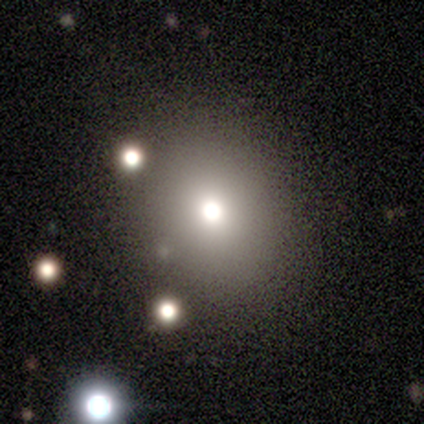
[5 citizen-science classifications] A smooth galaxy with no disk features (60%) that is round (100%).

Vote fractions:
- Smooth or featured? smooth: 60% / featured or disk: 40% / star or artifact: 0%
- How rounded? round: 100% / in between: 0% / cigar-shaped: 0%
- Merging? none: 60% / major disturbance: 20% / merger: 20% / minor disturbance: 0%